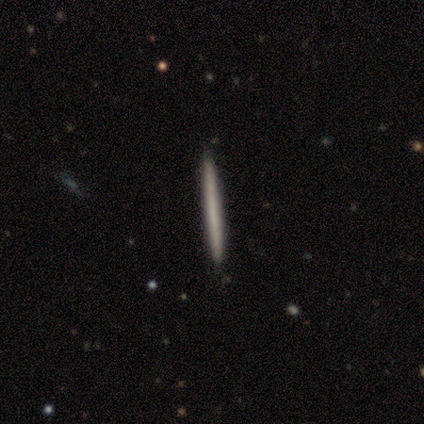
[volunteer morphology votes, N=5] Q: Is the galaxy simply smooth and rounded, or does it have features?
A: smooth — 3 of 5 (60%).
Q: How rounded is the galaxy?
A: cigar-shaped — 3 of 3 (100%).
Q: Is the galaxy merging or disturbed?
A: none — 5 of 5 (100%).